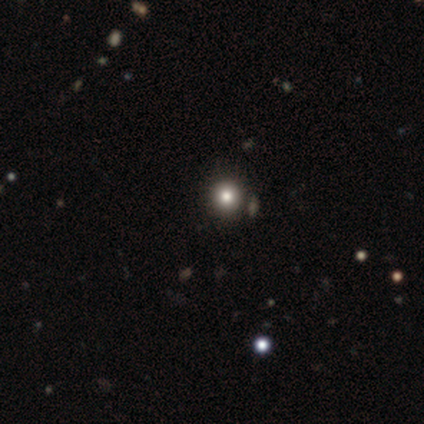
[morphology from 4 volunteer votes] Smooth or featured: smooth — 100%
How rounded: round — 100%
Merging: none — 100%